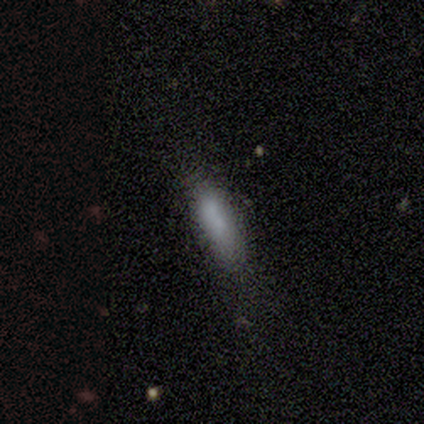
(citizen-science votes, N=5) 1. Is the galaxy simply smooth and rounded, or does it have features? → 80% smooth, 20% featured or disk, 0% star or artifact.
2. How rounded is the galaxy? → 75% in between, 25% cigar-shaped, 0% round.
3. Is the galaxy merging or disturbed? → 80% none, 20% minor disturbance, 0% major disturbance, 0% merger.